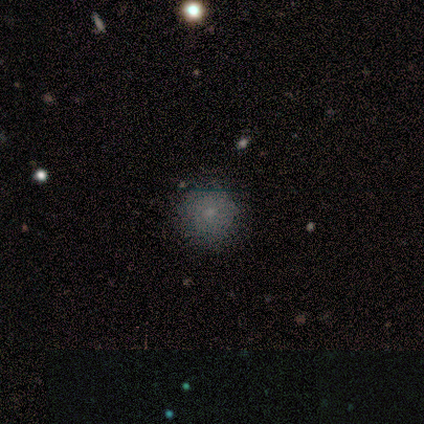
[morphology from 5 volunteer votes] This is marginally a smooth galaxy (40%, tied with star or artifact). How rounded: clearly round (100%). Merging: likely none (67%).